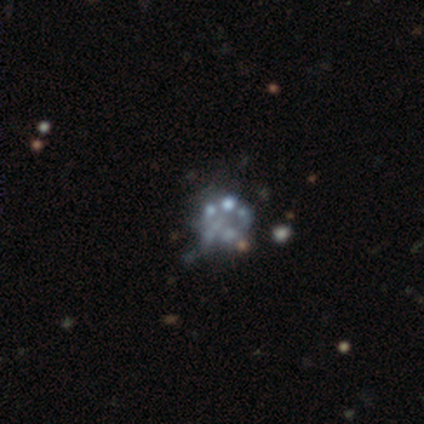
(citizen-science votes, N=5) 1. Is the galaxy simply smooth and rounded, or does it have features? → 80% featured or disk, 20% star or artifact, 0% smooth.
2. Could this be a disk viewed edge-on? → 100% no, 0% yes.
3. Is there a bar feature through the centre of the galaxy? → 100% no, 0% strong, 0% weak.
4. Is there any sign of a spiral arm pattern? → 100% no, 0% yes.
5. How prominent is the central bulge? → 100% none, 0% dominant, 0% large, 0% moderate, 0% small.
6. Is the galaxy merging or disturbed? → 50% none, 25% minor disturbance, 25% merger, 0% major disturbance.